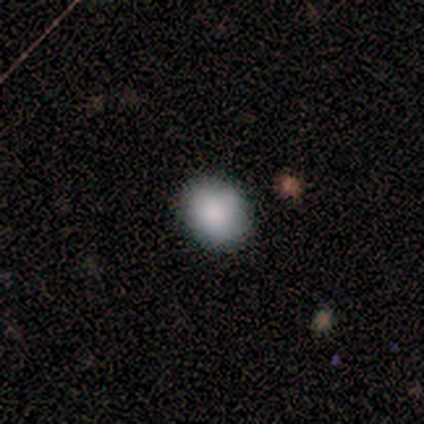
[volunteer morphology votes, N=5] smooth 80%, star or artifact 20%, featured or disk 0%. Down the decision tree: how rounded — round (50%, tied with in between); merging — none (75%).